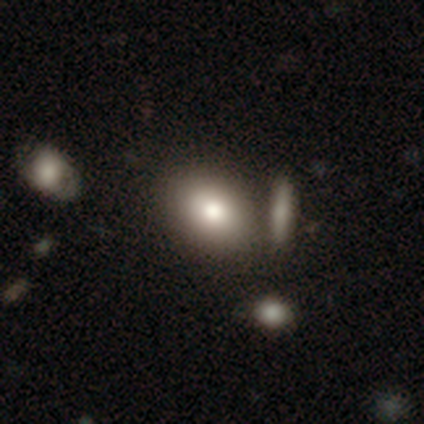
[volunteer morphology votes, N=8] Smooth or featured: smooth — 100%
How rounded: in between — 88% (round — 12%)
Merging: none — 62% (minor disturbance — 25%)